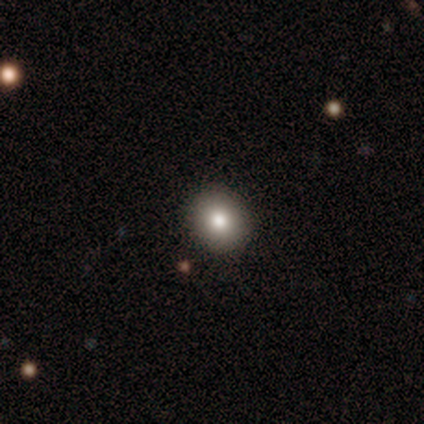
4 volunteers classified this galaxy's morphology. type=star or artifact (50%).